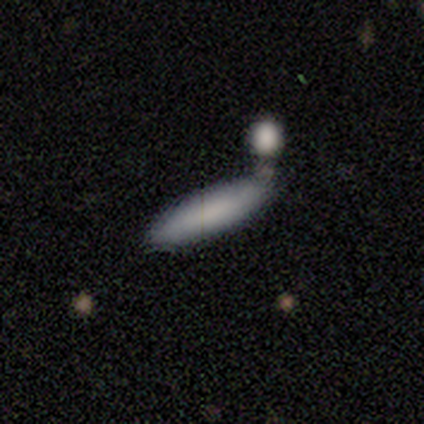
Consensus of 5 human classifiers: This appears to be a smooth galaxy with no disk features (80%) that is cigar-shaped (100%). Merging: none (40%, tied with merger).